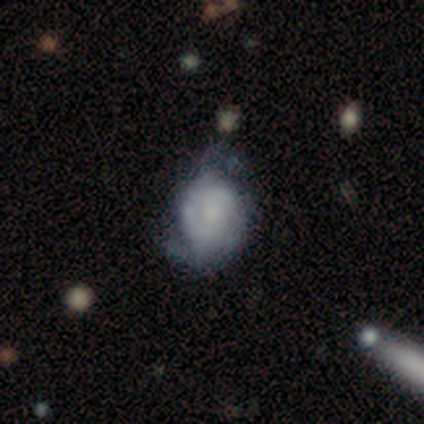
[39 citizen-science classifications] A featured or disk galaxy (64%) with no bar (65%), 2 (56%) medium (39%) spiral arms (78%) and a moderate central bulge (39%).

Vote fractions:
- Smooth or featured? featured or disk: 64% / smooth: 33% / star or artifact: 3%
- Edge-on disk? no: 92% / yes: 8%
- Bar? no: 65% / weak: 30% / strong: 4%
- Spiral arms? yes: 78% / no: 22%
- Spiral winding? medium: 39% / tight: 33% / loose: 28%
- Spiral arm count? 2: 56% / can't tell: 39% / 3: 6% / 1: 0% / 4: 0% / more than 4: 0%
- Bulge size? moderate: 39% / small: 35% / none: 26% / dominant: 0% / large: 0%
- Merging? none: 37% / minor disturbance: 32% / major disturbance: 11% / merger: 3%